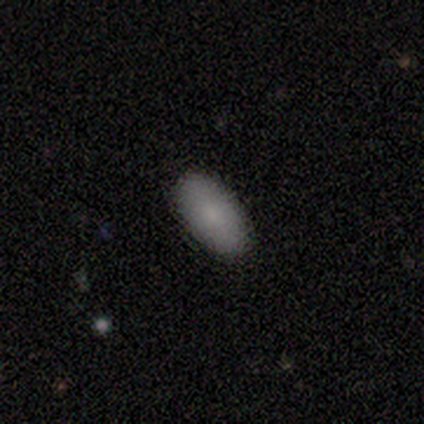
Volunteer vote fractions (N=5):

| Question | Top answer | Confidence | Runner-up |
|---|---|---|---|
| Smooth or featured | smooth | 100% | — |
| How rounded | in between | 100% | — |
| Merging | none | 100% | — |